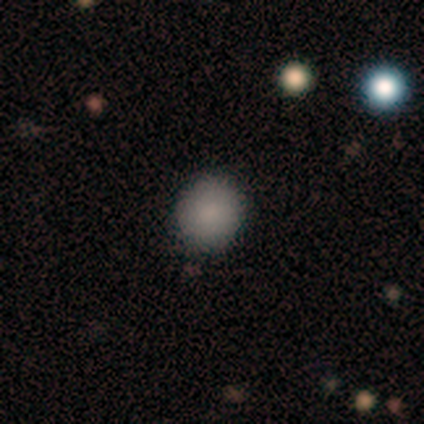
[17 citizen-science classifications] Smooth or featured: smooth — 94% (star or artifact — 6%)
How rounded: round — 88% (in between — 12%)
Merging: none — 75% (minor disturbance — 12%)